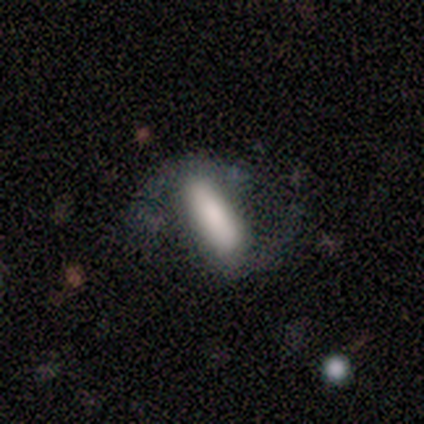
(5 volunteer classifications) This appears to be a smooth galaxy with no disk features (60%) that is cigar-shaped (67%). Merging: minor disturbance (75%).